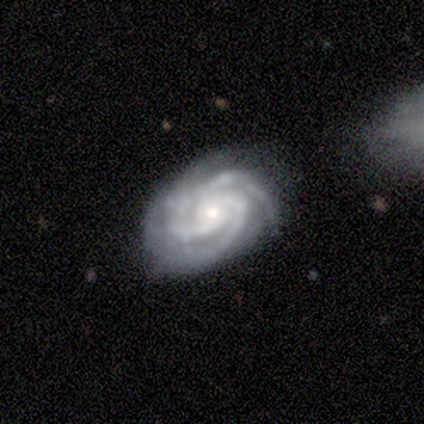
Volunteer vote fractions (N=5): A featured or disk galaxy (100%) with no bar (80%), 3 (40%) tight (100%) spiral arms (100%) and a small central bulge (80%).

Vote fractions:
- Smooth or featured? featured or disk: 100% / smooth: 0% / star or artifact: 0%
- Edge-on disk? no: 100% / yes: 0%
- Bar? no: 80% / strong: 20% / weak: 0%
- Spiral arms? yes: 100% / no: 0%
- Spiral winding? tight: 100% / medium: 0% / loose: 0%
- Spiral arm count? 3: 40% / 2: 20% / 4: 20% / can't tell: 20% / 1: 0% / more than 4: 0%
- Bulge size? small: 80% / moderate: 20% / dominant: 0% / large: 0% / none: 0%
- Merging? none: 100% / minor disturbance: 0% / major disturbance: 0% / merger: 0%